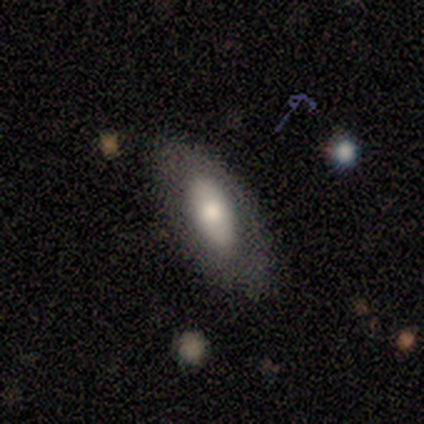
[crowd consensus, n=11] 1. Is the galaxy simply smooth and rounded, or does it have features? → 64% smooth, 36% featured or disk, 0% star or artifact.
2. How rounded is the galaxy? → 100% in between, 0% round, 0% cigar-shaped.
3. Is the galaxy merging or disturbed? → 82% none, 9% minor disturbance, 9% major disturbance, 0% merger.